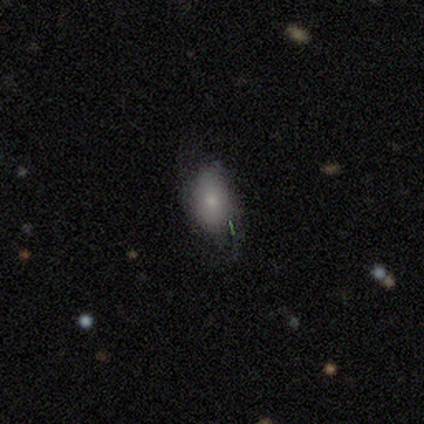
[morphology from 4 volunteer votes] Smooth or featured? 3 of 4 (75%) said smooth. How rounded? 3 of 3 (100%) said in between. Merging? 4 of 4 (100%) said none.